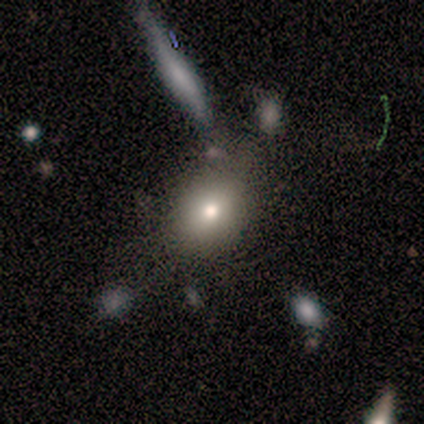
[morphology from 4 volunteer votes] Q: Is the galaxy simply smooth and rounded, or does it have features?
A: smooth — 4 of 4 (100%).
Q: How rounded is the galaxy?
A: round — 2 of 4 (50%, tied with in between).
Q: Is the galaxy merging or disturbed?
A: none — 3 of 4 (75%).